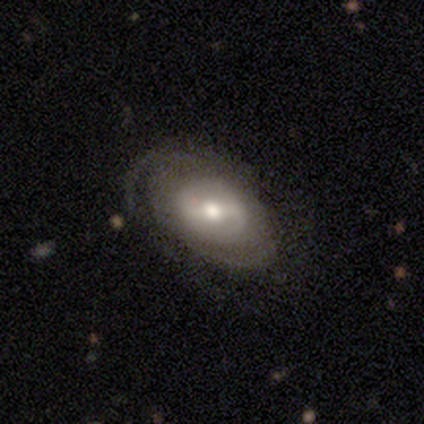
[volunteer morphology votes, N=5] Smooth or featured?
  - featured or disk: 60% *
  - smooth: 20%
  - star or artifact: 20%
Edge-on disk?
  - no: 100% *
  - yes: 0%
Bar?
  - weak: 67% *
  - strong: 33%
  - no: 0%
Spiral arms?
  - no: 67% *
  - yes: 33%
Bulge size?
  - moderate: 67% *
  - small: 33%
  - dominant: 0%
  - large: 0%
  - none: 0%
Merging?
  - none: 100% *
  - minor disturbance: 0%
  - major disturbance: 0%
  - merger: 0%